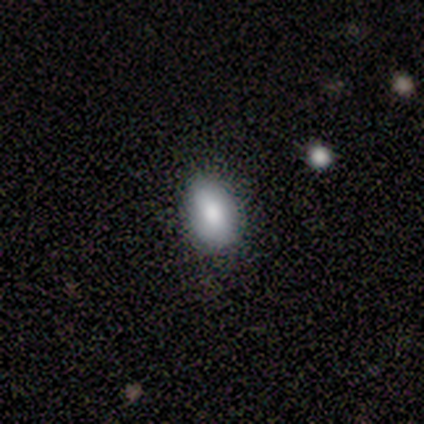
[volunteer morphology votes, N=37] Smooth or featured? smooth (78%)
How rounded? in between (76%)
Merging? none (77%)